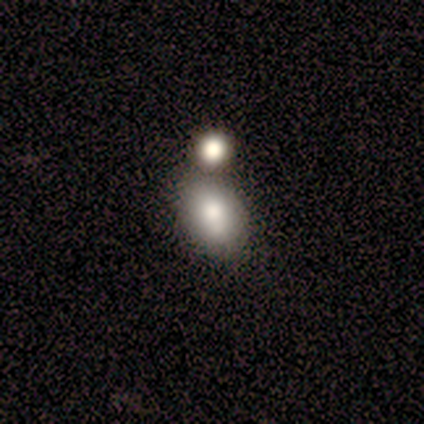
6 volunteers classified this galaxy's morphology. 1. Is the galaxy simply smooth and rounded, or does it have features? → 83% smooth, 17% star or artifact, 0% featured or disk.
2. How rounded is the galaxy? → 100% in between, 0% round, 0% cigar-shaped.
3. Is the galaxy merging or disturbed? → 40% none (tied), 40% minor disturbance (tied), 20% major disturbance, 0% merger.